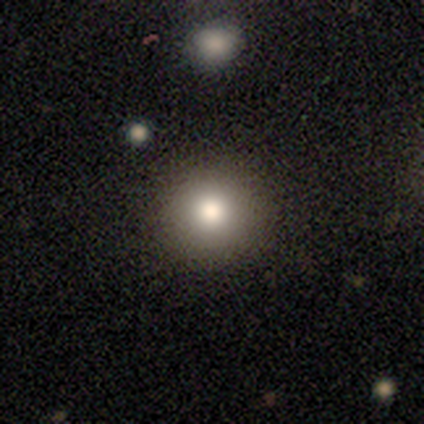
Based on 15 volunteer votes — This appears to be a smooth galaxy with no disk features (87%) that is round (92%). Merging: none (92%).